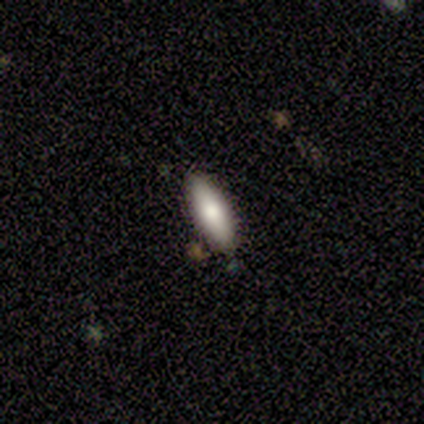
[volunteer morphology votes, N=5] Q: Smooth or featured?
A: smooth (80%); runner-up: featured or disk (20%)
Q: How rounded?
A: in between (100%)
Q: Merging?
A: none (80%); runner-up: minor disturbance (20%)